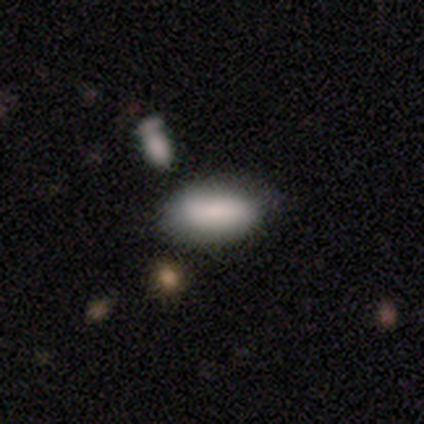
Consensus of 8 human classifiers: smooth_or_featured: smooth (p=1.00)
how_rounded: in between (p=1.00)
merging: none (p=0.88) [alt: minor disturbance p=0.12]